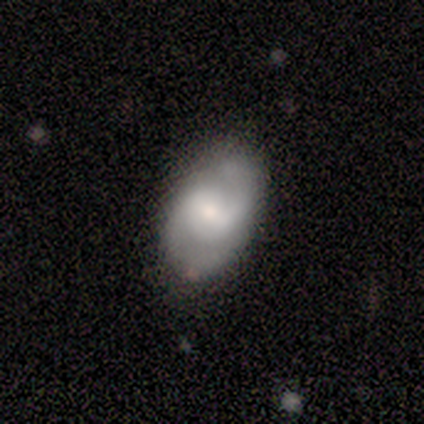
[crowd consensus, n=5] Morphology: type=featured or disk (60%); edge-on=no (100%); bar=weak (100%); spiral arms=yes (100%); winding=medium (67%); arm count=2 (100%); bulge=moderate (67%); merging=none (60%).